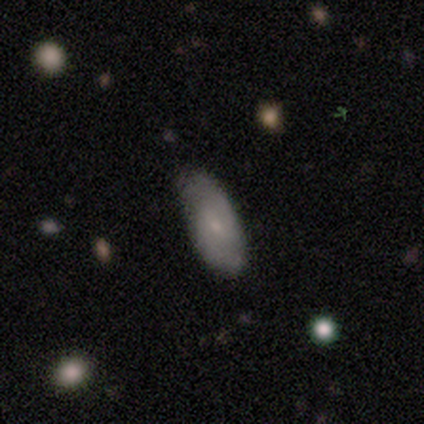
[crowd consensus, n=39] Volunteers were most divided on "smooth or featured": featured or disk: 51%, smooth: 41%, star or artifact: 8%. More confident: edge-on disk — no (95%); spiral arms — yes (84%); spiral arm count — 2 (81%); bulge size — small (74%); merging — none (69%); spiral winding — medium (62%); bar — weak (58%).